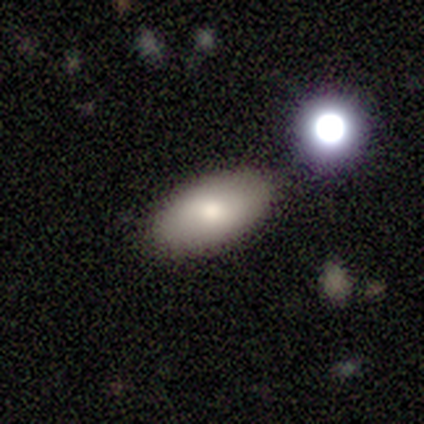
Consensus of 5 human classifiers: Smooth or featured? 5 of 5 (100%) said smooth. How rounded? 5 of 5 (100%) said in between. Merging? 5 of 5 (100%) said none.